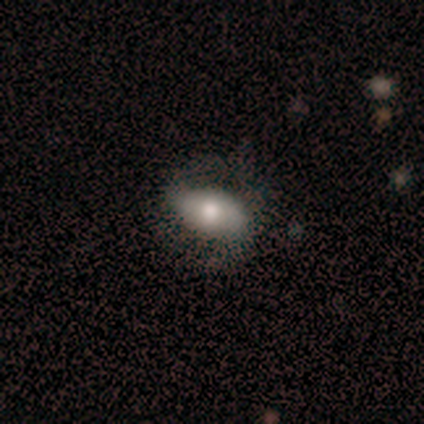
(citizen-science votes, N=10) smooth_or_featured: smooth (p=0.50) [tied with: featured or disk p=0.50]
how_rounded: in between (p=0.80) [alt: round p=0.20]
merging: none (p=0.60) [alt: minor disturbance p=0.40]